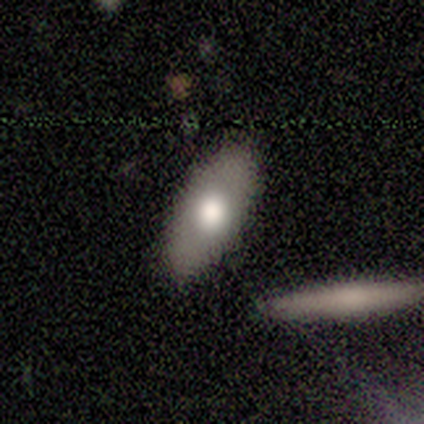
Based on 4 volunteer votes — Smooth or featured?
  - smooth: 100% *
  - featured or disk: 0%
  - star or artifact: 0%
How rounded?
  - in between: 100% *
  - round: 0%
  - cigar-shaped: 0%
Merging?
  - none: 75% *
  - minor disturbance: 25%
  - major disturbance: 0%
  - merger: 0%